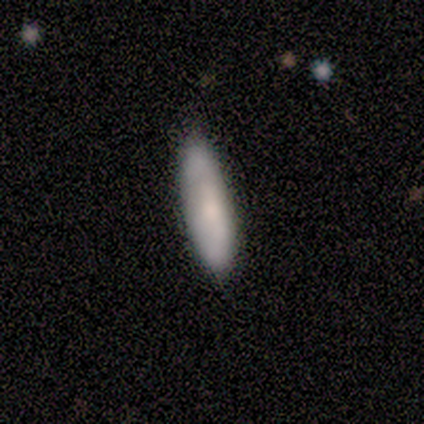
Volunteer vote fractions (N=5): Smooth or featured? smooth (100%)
How rounded? in between (60%)
Merging? none (100%)